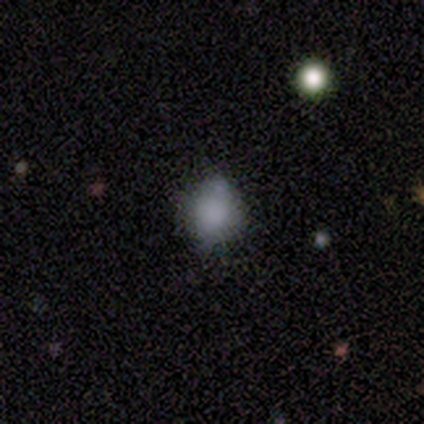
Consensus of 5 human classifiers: This is likely a smooth galaxy (60%). How rounded: likely round (67%). Merging: likely none (67%).